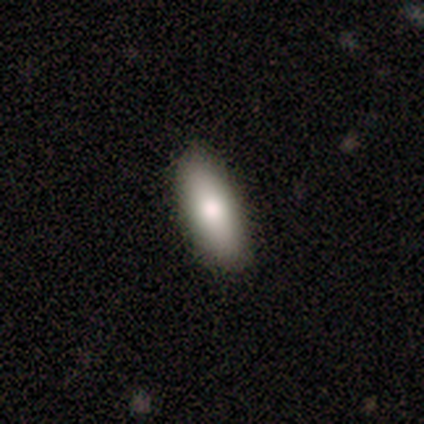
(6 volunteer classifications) smooth 100%, featured or disk 0%, star or artifact 0%. Down the decision tree: how rounded — in between (50%, tied with cigar-shaped); merging — none (100%).